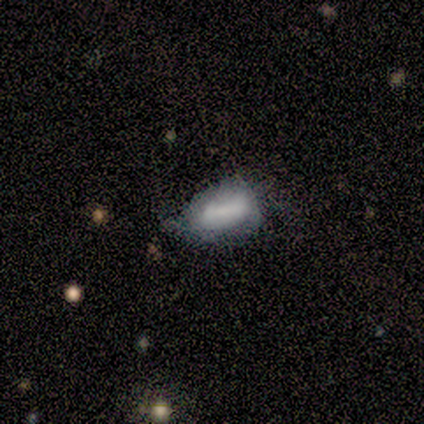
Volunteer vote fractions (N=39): Smooth or featured? 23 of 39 (59%) said smooth. How rounded? 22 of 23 (96%) said in between. Merging? 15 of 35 (43%) said none.